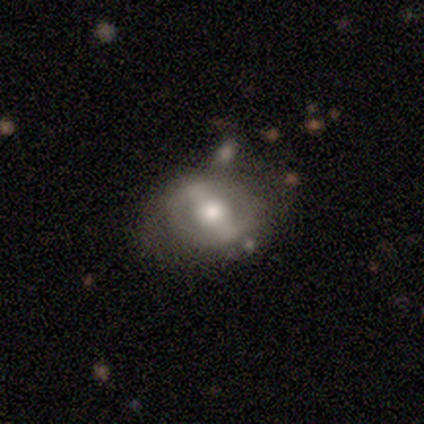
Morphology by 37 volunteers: This is likely a featured or disk galaxy (68%). It is clearly not viewed edge-on (92%). Bar: likely strong (65%). Spiral arm pattern: clearly no (83%). Central bulge: likely moderate (61%). Merging: likely none (62%).